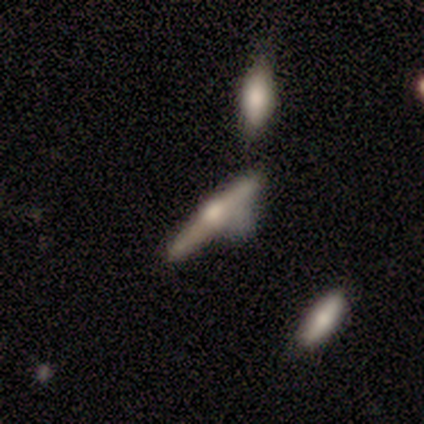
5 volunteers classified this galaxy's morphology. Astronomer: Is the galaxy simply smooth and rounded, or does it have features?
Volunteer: featured or disk — 80%.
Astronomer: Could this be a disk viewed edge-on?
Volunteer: yes — 100%.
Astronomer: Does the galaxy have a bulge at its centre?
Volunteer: rounded — 100%.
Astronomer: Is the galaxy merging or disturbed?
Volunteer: none — 40%, tied with minor disturbance at 40%.